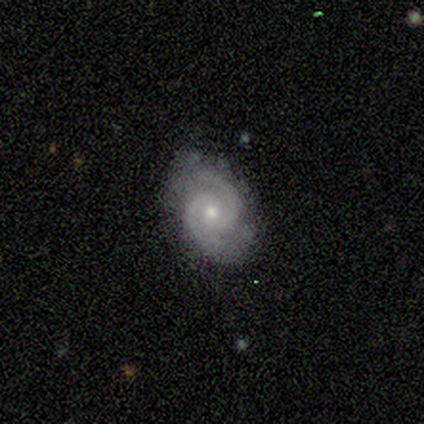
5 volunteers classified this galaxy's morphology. featured or disk 80%, smooth 20%, star or artifact 0%. Down the decision tree: edge-on disk — no (100%); bar — weak (75%); spiral arms — yes (100%); spiral arm count — 2 (100%); spiral winding — tight (75%); bulge size — small (75%); merging — none (80%).